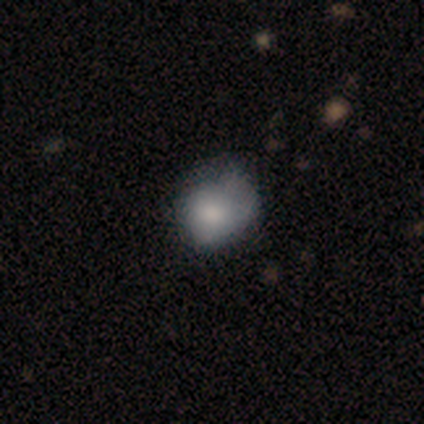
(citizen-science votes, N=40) Smooth or featured? 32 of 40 (80%) said smooth. How rounded? 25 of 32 (78%) said round. Merging? 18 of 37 (49%) said none.